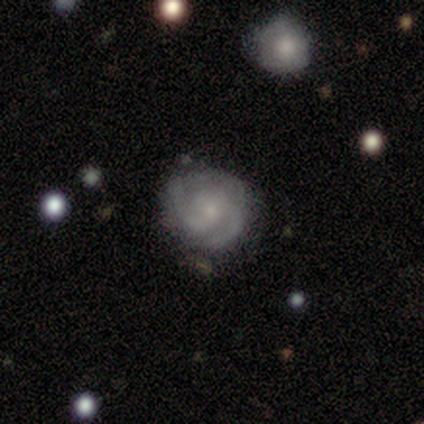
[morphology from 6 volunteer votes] This appears to be a featured or disk galaxy (83%) with no bar (100%), 3 (60%) medium (60%) spiral arms (100%) and a small central bulge (100%). Merging: none (83%).